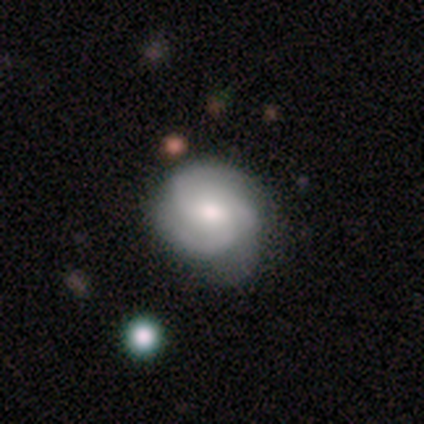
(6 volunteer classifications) smooth-or-featured: featured or disk: 83% | smooth: 17% | star or artifact: 0%
  disk-edge-on: no: 100% | yes: 0%
    bar: no: 80% | weak: 20% | strong: 0%
    has-spiral-arms: yes: 100% | no: 0%
      spiral-winding: tight: 60% | medium: 40% | loose: 0%
      spiral-arm-count: 3: 80% | can't tell: 20% | 1: 0% | 2: 0% | 4: 0% | more than 4: 0%
    bulge-size: moderate: 60% | small: 20% | none: 20% | dominant: 0% | large: 0%
  merging: minor disturbance: 50% | none: 33% | major disturbance: 17% | merger: 0%